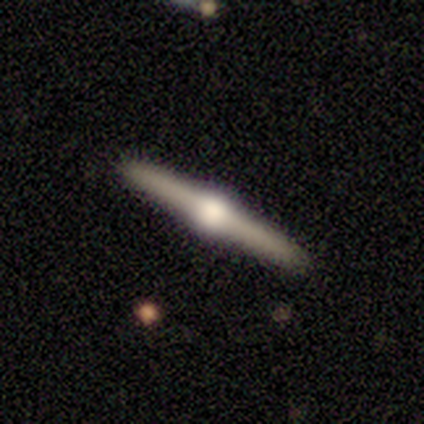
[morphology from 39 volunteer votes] Smooth or featured: featured or disk — 79% (smooth — 15%)
Edge-on disk: yes — 100%
Edge-on bulge: rounded — 94% (boxy — 6%)
Merging: none — 95% (minor disturbance — 5%)